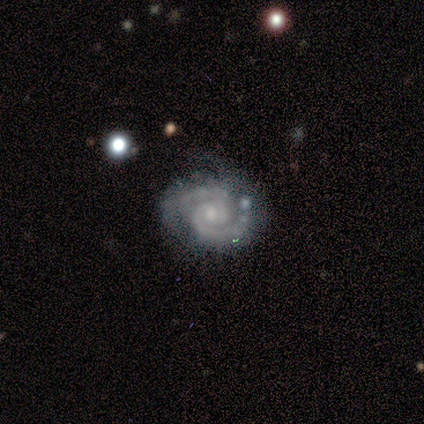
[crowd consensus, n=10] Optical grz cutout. It shows a featured or disk galaxy (90%) with a weak bar (67%), 2 (100%) tight (56%) spiral arms (100%) and a small central bulge (78%). Merging: none (56%).